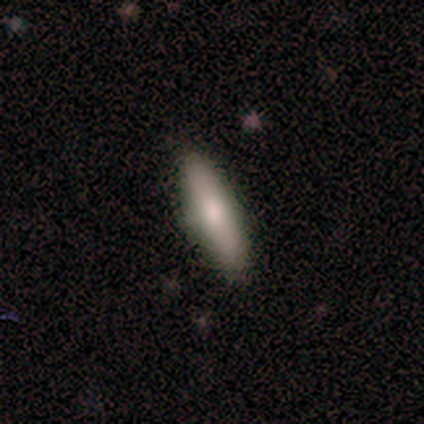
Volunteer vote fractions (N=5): Q: Smooth or featured?
A: smooth (80%); runner-up: featured or disk (20%)
Q: How rounded?
A: cigar-shaped (75%); runner-up: in between (25%)
Q: Merging?
A: none (80%); runner-up: minor disturbance (20%)